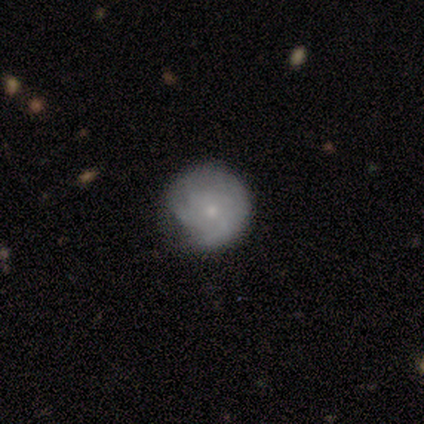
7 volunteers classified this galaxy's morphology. Volunteers were most divided on "spiral arms" (2-way tie): yes: 50%, no: 50%; "spiral winding" (2-way tie): tight: 50%, medium: 50%, loose: 0%; "spiral arm count" (2-way tie): 3: 50%, 4: 50%, 1: 0%, 2: 0%, more than 4: 0%, can't tell: 0%. More confident: edge-on disk — no (100%); bulge size — small (100%); bar — no (75%); smooth or featured — featured or disk (57%); merging — none (57%).